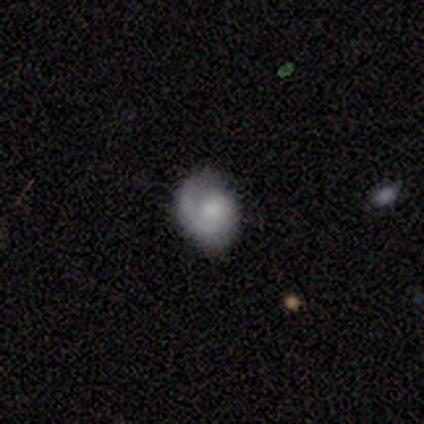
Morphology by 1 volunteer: Smooth or featured? 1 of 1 (100%) said featured or disk. Edge-on disk? 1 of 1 (100%) said no. Bar? 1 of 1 (100%) said no. Spiral arms? 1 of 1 (100%) said yes. Spiral winding? 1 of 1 (100%) said medium. Spiral arm count? 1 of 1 (100%) said 1. Bulge size? 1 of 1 (100%) said small. Merging? 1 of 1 (100%) said none.